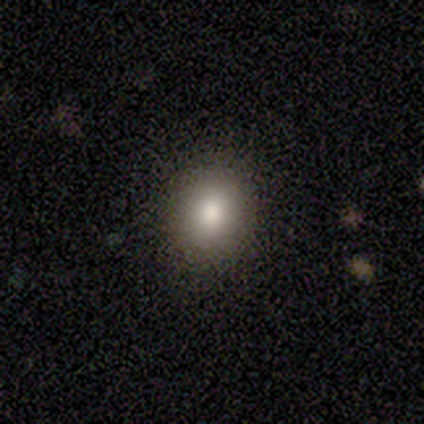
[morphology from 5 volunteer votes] Smooth or featured: smooth — 100%
How rounded: round — 100%
Merging: none — 100%